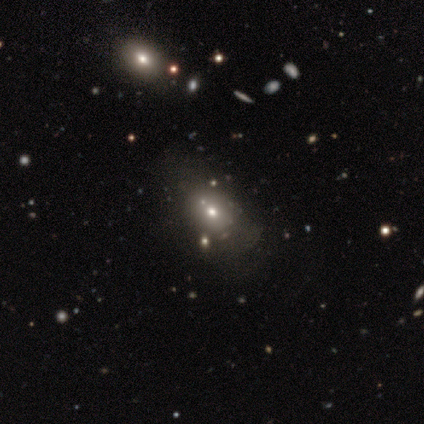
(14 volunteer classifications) Overall: smooth (57%; featured or disk 29%). How rounded: in between (88%). Merging: none (67%).